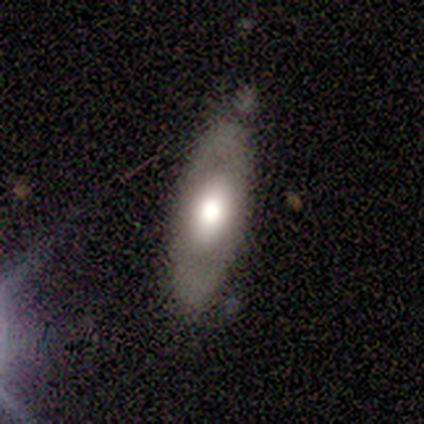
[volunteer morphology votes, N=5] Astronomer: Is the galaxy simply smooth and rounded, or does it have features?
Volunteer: featured or disk — 80%.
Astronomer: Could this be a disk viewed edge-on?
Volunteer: no — 100%.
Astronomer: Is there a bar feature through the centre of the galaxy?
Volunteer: no — 100%.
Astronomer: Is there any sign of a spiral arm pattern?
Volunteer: no — 100%.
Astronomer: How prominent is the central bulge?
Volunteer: large — 50%, tied with moderate at 50%.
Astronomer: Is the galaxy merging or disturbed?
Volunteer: none — 100%.